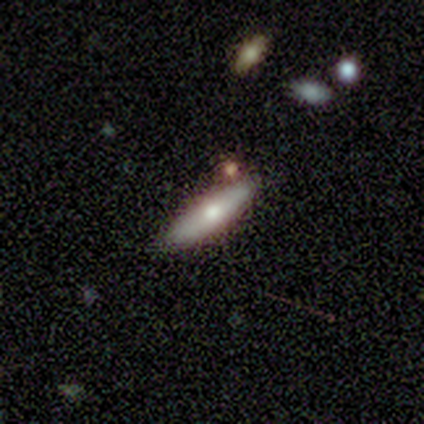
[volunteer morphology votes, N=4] Smooth or featured: smooth — 50% (tied with featured or disk — 50%)
How rounded: cigar-shaped — 100%
Merging: none — 75% (merger — 25%)